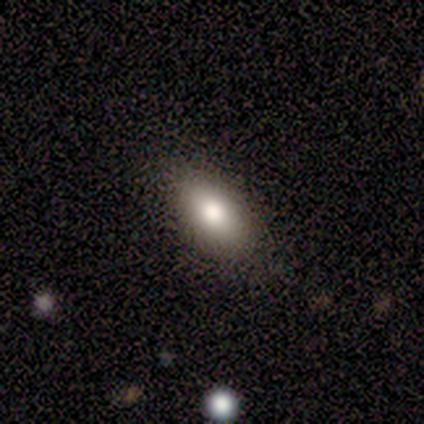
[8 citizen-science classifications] smooth 62%, featured or disk 25%, star or artifact 12%. Down the decision tree: how rounded — in between (100%); merging — none (86%).